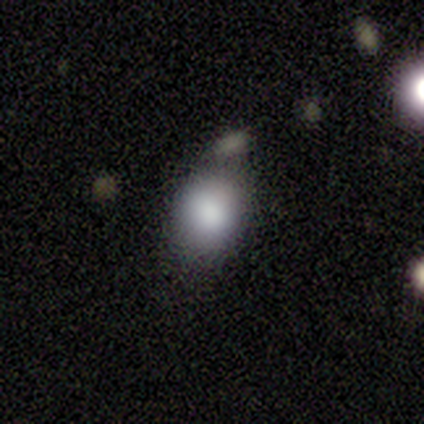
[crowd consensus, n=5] Smooth or featured? smooth (80%)
How rounded? round (50%, tied with in between)
Merging? none (60%)